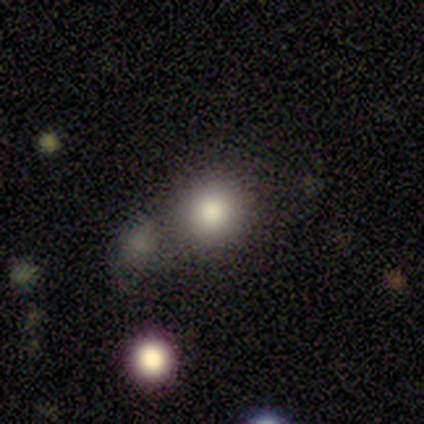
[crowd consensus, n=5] Smooth or featured? smooth (80%)
How rounded? round (100%)
Merging? none (75%)